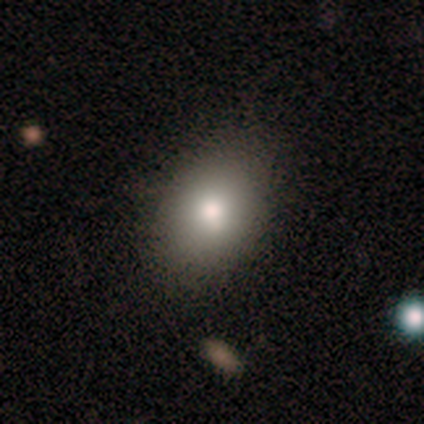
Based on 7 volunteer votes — Morphology: type=smooth (86%); roundness=in between (67%); merging=none (100%).